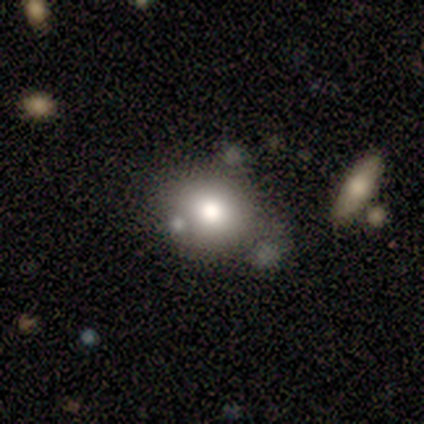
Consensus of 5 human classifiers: Smooth or featured?
  - smooth: 60% *
  - star or artifact: 40%
  - featured or disk: 0%
How rounded?
  - round: 100% *
  - in between: 0%
  - cigar-shaped: 0%
Merging?
  - none: 33% * (tied)
  - minor disturbance: 33% * (tied)
  - merger: 33% * (tied)
  - major disturbance: 0%